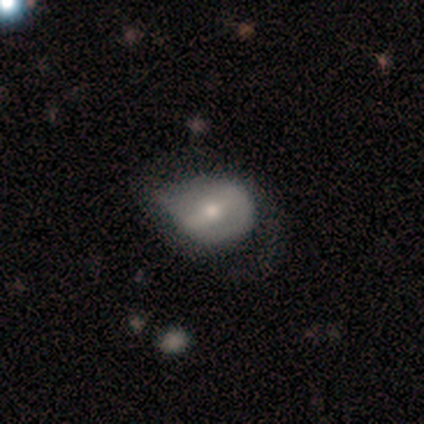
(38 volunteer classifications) Q: Smooth or featured?
A: featured or disk (50%); runner-up: smooth (39%)
Q: Edge-on disk?
A: no (100%)
Q: Bar?
A: strong (42%); runner-up: weak (37%)
Q: Spiral arms?
A: no (68%); runner-up: yes (32%)
Q: Bulge size?
A: moderate (63%); runner-up: small (26%)
Q: Merging?
A: minor disturbance (26%); runner-up: none (21%)